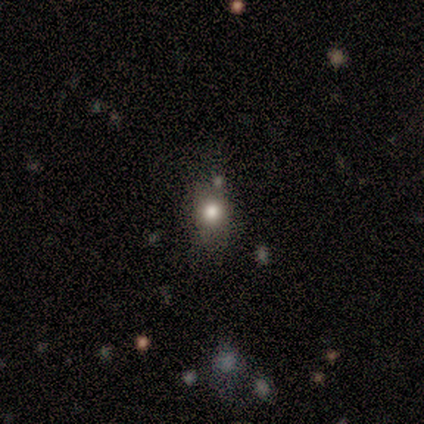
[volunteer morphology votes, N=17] This is likely a smooth galaxy (76%). How rounded: possibly round (54%). Merging: likely none (71%).